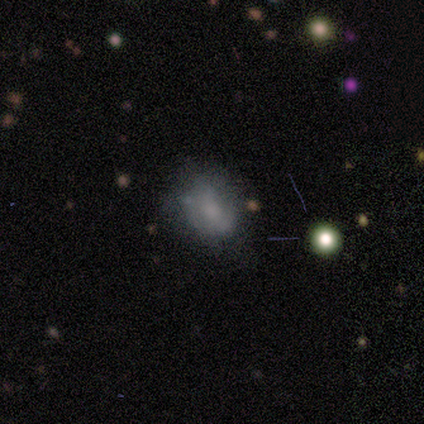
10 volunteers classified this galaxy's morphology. Smooth or featured? smooth (70%)
How rounded? round (57%)
Merging? none (78%)